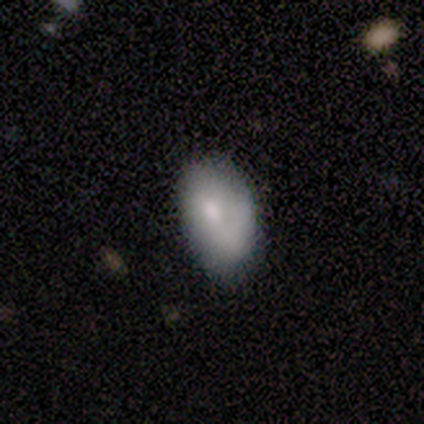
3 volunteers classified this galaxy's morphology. Smooth or featured: smooth — 67% (featured or disk — 33%)
How rounded: in between — 100%
Merging: none — 100%